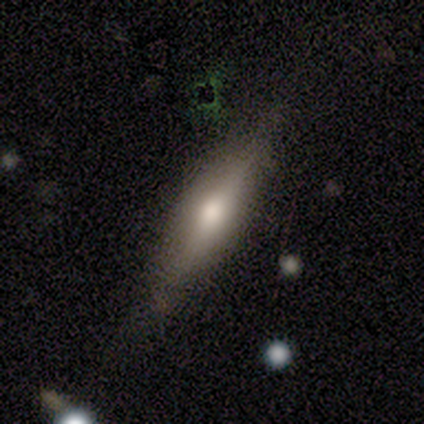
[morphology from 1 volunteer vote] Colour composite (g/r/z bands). It shows a smooth galaxy with no disk features (100%) that is in between round and cigar-shaped (100%). Merging: minor disturbance (100%).